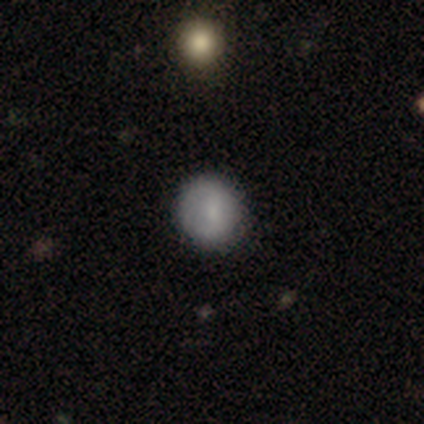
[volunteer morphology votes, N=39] Smooth or featured? smooth (82%)
How rounded? round (94%)
Merging? none (94%)